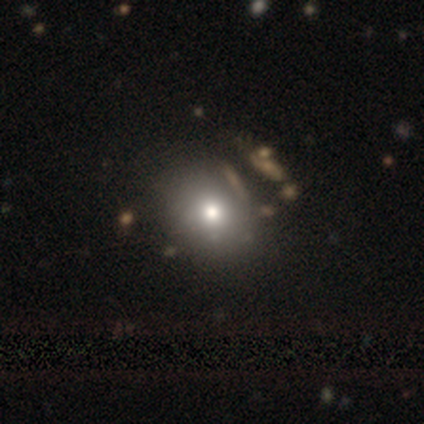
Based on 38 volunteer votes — Overall: smooth (68%). How rounded: round (58%; in between 38%). Merging: none (78%).